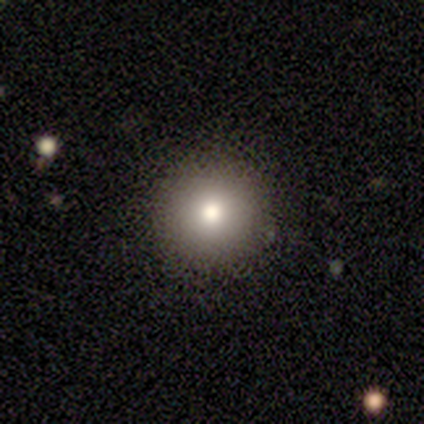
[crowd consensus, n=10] This appears to be a smooth galaxy with no disk features (80%) that is round (88%). Merging: none (75%).